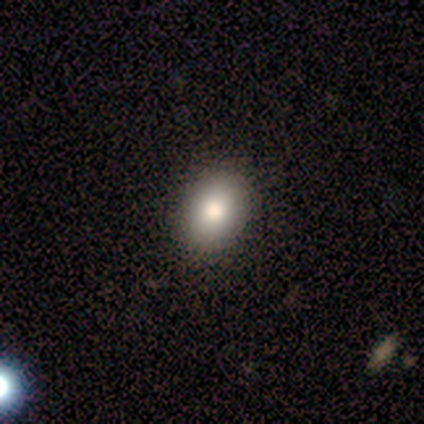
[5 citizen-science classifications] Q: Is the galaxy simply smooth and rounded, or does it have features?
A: smooth — 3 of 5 (60%).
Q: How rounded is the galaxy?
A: in between — 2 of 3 (67%).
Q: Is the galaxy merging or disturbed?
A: none — 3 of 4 (75%).